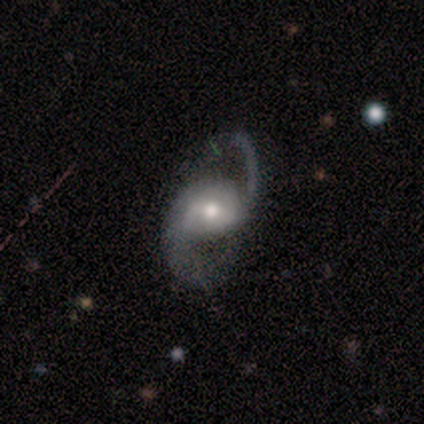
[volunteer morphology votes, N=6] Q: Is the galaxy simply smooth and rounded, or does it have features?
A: featured or disk — 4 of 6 (67%).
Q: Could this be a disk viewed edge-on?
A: no — 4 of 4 (100%).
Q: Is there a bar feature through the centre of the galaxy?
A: weak — 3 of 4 (75%).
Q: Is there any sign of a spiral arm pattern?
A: yes — 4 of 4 (100%).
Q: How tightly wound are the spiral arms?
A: medium — 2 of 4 (50%).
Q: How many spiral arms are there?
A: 2 — 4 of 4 (100%).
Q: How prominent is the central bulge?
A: moderate — 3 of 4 (75%).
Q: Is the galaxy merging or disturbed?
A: none — 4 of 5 (80%).